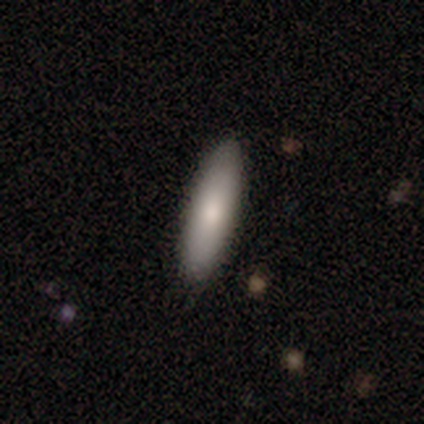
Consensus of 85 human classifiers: Volunteers were most divided on "how rounded": cigar-shaped: 77%, in between: 23%, round: 0%. More confident: merging — none (84%); smooth or featured — smooth (84%).